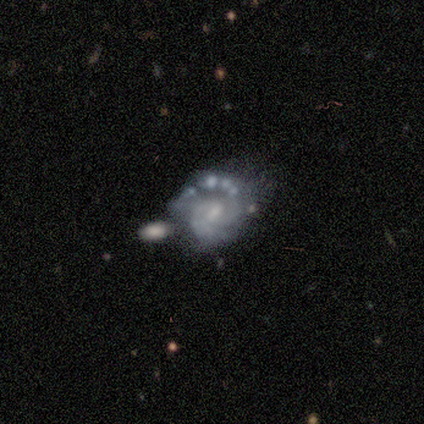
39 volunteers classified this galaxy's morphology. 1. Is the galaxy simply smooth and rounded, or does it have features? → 85% featured or disk, 8% smooth, 8% star or artifact.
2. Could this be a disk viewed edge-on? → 100% no, 0% yes.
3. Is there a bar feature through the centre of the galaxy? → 52% no, 39% weak, 9% strong.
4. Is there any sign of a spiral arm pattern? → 91% yes, 9% no.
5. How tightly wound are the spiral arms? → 57% tight, 27% medium, 17% loose.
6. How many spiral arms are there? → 50% 2, 27% can't tell, 13% 3, 10% 1, 0% 4, 0% more than 4.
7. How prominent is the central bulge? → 55% small, 39% moderate, 6% none, 0% dominant, 0% large.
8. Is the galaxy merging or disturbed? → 36% none, 28% merger, 19% minor disturbance, 17% major disturbance.